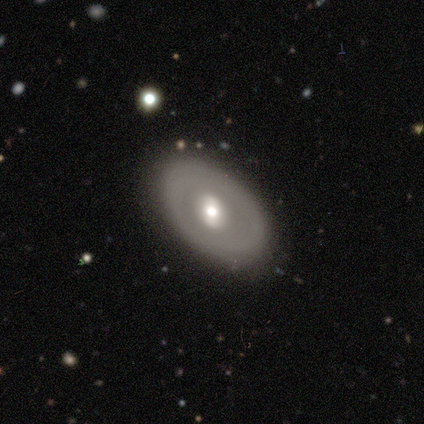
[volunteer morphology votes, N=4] Q: Smooth or featured?
A: smooth (50%); tied with: featured or disk (50%)
Q: How rounded?
A: in between (100%)
Q: Merging?
A: none (75%); runner-up: minor disturbance (25%)